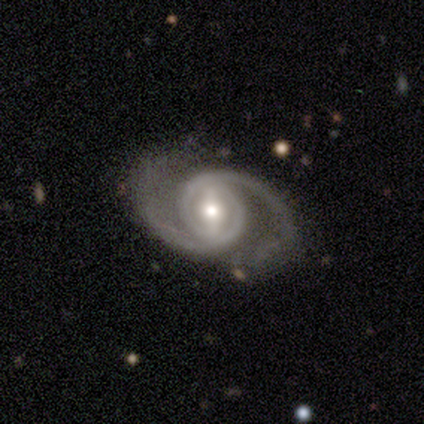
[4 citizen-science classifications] Smooth or featured? featured or disk (100%)
Edge-on disk? no (100%)
Bar? strong (50%, tied with weak)
Spiral arms? yes (100%)
Spiral winding? tight (50%, tied with medium)
Spiral arm count? 2 (100%)
Bulge size? small (75%)
Merging? none (100%)